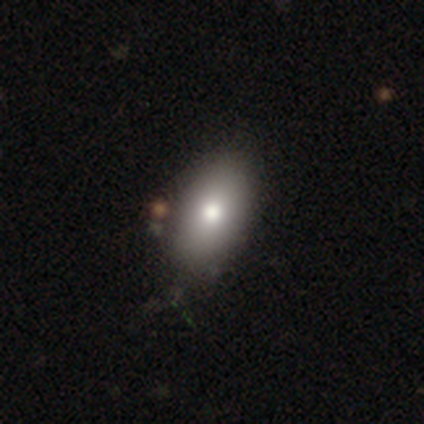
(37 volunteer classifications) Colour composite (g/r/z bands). It shows a smooth galaxy with no disk features (78%) that is in between round and cigar-shaped (97%). Merging: none (51%).